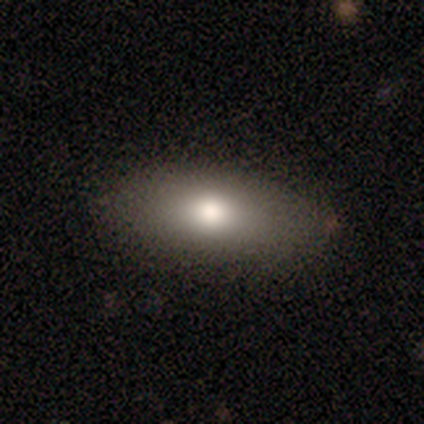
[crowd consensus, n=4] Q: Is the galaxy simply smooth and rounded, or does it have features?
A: smooth — 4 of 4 (100%).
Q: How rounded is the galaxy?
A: in between — 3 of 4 (75%).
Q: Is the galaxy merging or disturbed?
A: none — 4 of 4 (100%).